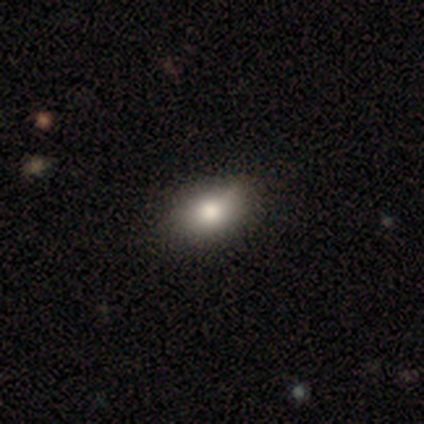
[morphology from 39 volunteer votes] smooth-or-featured: smooth: 69% | star or artifact: 18% | featured or disk: 13%
  how-rounded: in between: 81% | round: 15% | cigar-shaped: 4%
  merging: none: 78% | minor disturbance: 16% | major disturbance: 3% | merger: 3%